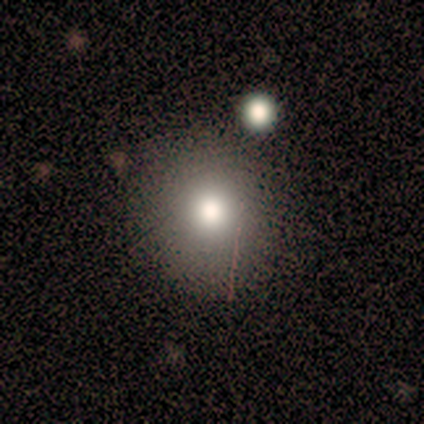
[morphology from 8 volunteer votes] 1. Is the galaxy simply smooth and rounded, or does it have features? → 88% smooth, 12% featured or disk, 0% star or artifact.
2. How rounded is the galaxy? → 86% round, 14% in between, 0% cigar-shaped.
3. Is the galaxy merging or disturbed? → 50% none (tied), 50% minor disturbance (tied), 0% major disturbance, 0% merger.